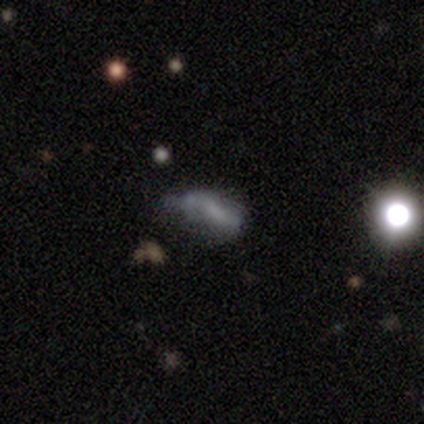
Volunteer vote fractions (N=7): This is possibly a star or artifact rather than a galaxy (57%).